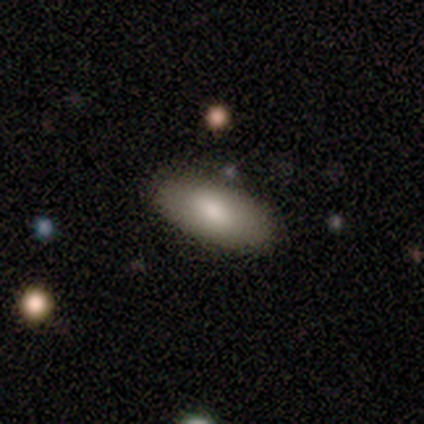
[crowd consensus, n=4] smooth-or-featured: smooth: 75% | star or artifact: 25% | featured or disk: 0%
  how-rounded: in between: 100% | round: 0% | cigar-shaped: 0%
  merging: none: 67% | minor disturbance: 33% | major disturbance: 0% | merger: 0%